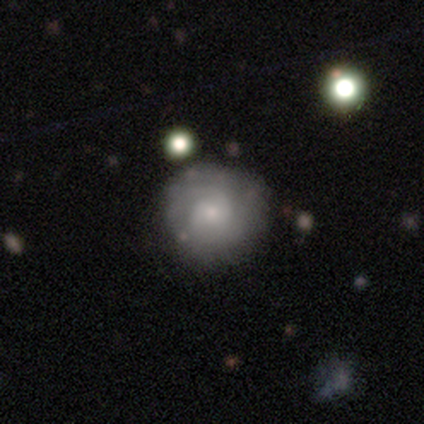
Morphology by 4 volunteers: featured or disk 100%, smooth 0%, star or artifact 0%. Down the decision tree: edge-on disk — no (100%); bar — no (75%); spiral arms — yes (50%, tied with no); spiral arm count — 2 (50%, tied with 3); spiral winding — tight (100%); bulge size — small (75%); merging — none (75%).